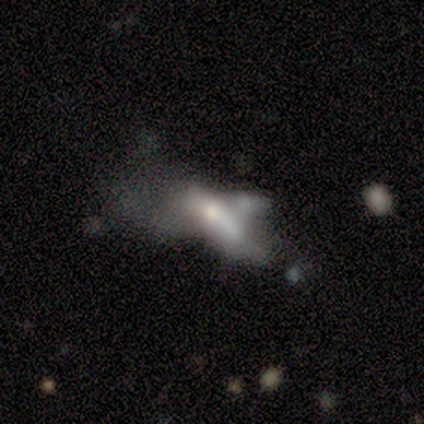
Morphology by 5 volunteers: Smooth or featured? smooth (40%, tied with featured or disk)
How rounded? in between (50%, tied with cigar-shaped)
Merging? major disturbance (50%)